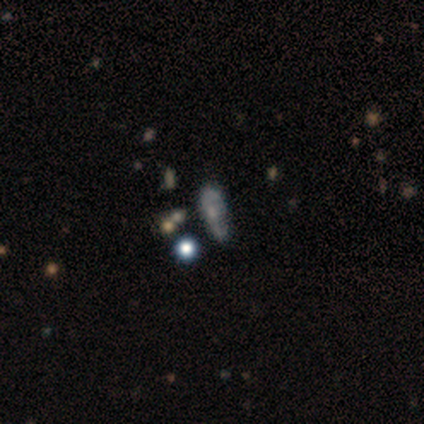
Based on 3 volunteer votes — smooth_or_featured: smooth (p=0.67) [alt: featured or disk p=0.33]
how_rounded: in between (p=1.00)
merging: none (p=0.33) [tied with: minor disturbance p=0.33, merger p=0.33]